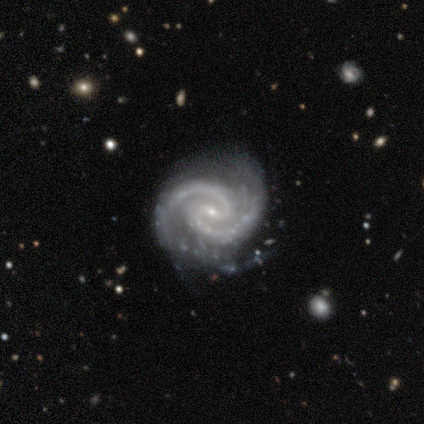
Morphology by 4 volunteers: Smooth or featured: featured or disk — 100%
Edge-on disk: no — 100%
Bar: strong — 50% (tied with weak — 50%)
Spiral arms: yes — 100%
Spiral winding: tight — 75% (medium — 25%)
Spiral arm count: 2 — 100%
Bulge size: moderate — 50% (tied with small — 50%)
Merging: none — 75% (minor disturbance — 25%)